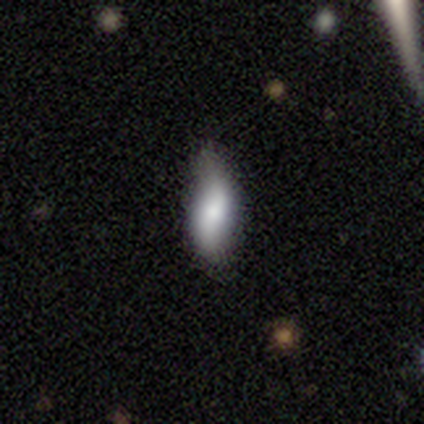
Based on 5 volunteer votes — smooth-or-featured: smooth: 80% | featured or disk: 20% | star or artifact: 0%
  how-rounded: in between: 100% | round: 0% | cigar-shaped: 0%
  merging: none: 40% (tied) | minor disturbance: 40% (tied) | major disturbance: 20% | merger: 0%